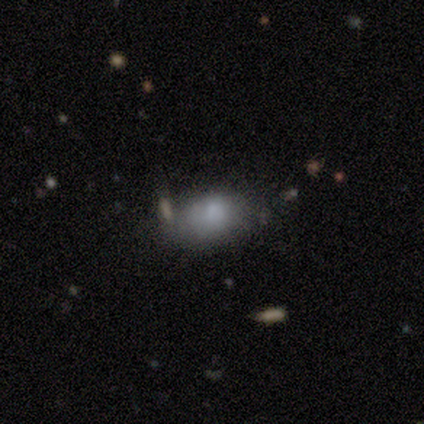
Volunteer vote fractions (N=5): smooth-or-featured: smooth: 80% | featured or disk: 20% | star or artifact: 0%
  how-rounded: in between: 100% | round: 0% | cigar-shaped: 0%
  merging: minor disturbance: 60% | major disturbance: 40% | none: 0% | merger: 0%